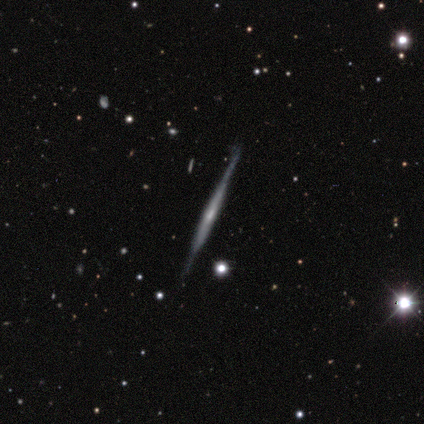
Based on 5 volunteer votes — featured or disk 80%, smooth 20%, star or artifact 0%. Down the decision tree: edge-on disk — yes (100%); edge-on bulge — rounded (50%); merging — none (80%).